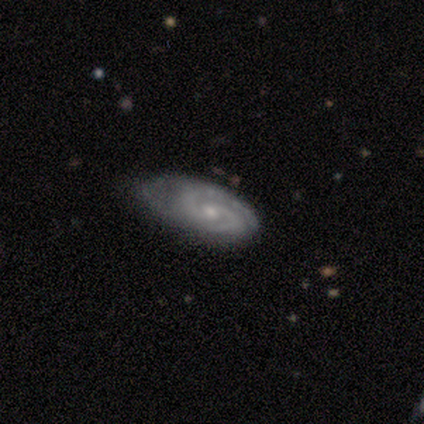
Volunteers were most divided on "bulge size" (2-way tie): moderate: 50%, small: 50%, dominant: 0%, large: 0%, none: 0%. More confident: smooth or featured — featured or disk (100%); spiral arms — yes (100%); edge-on disk — no (80%); bar — no (75%); spiral arm count — 2 (75%); merging — none (60%); spiral winding — medium (50%).